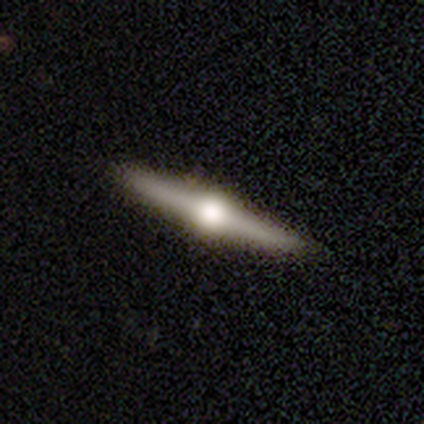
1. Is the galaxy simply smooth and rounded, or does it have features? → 50% smooth (tied), 50% featured or disk (tied), 0% star or artifact.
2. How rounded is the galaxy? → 100% cigar-shaped, 0% round, 0% in between.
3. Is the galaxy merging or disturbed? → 100% none, 0% minor disturbance, 0% major disturbance, 0% merger.